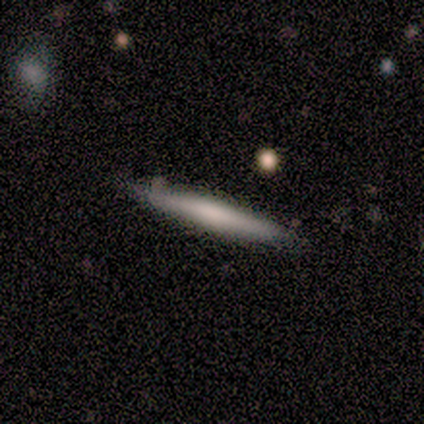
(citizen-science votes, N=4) This is likely a smooth galaxy (75%). How rounded: clearly cigar-shaped (100%). Merging: clearly none (100%).